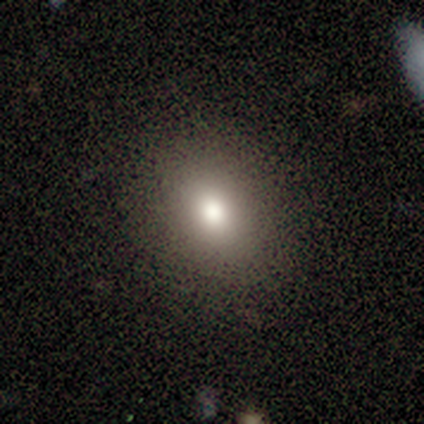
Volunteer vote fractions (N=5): smooth 100%, featured or disk 0%, star or artifact 0%. Down the decision tree: how rounded — in between (80%); merging — none (100%).